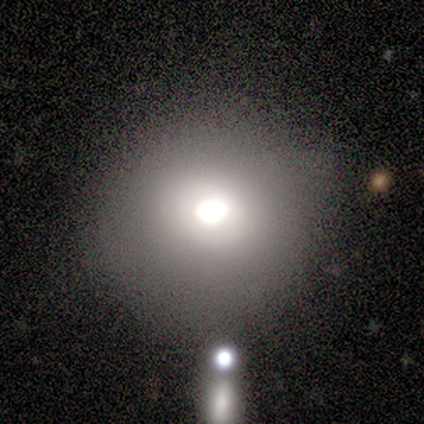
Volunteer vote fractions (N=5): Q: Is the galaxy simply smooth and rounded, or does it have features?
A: smooth — 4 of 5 (80%).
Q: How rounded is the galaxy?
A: round — 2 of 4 (50%).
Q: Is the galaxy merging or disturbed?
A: none — 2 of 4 (50%).